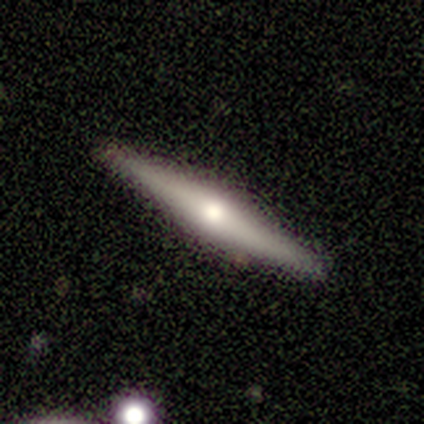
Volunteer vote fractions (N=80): This is likely a featured or disk galaxy (76%). It is clearly viewed edge-on (98%). Edge-on bulge: clearly rounded (85%). Merging: clearly none (91%).